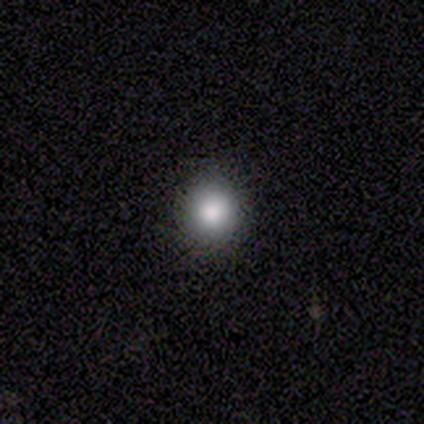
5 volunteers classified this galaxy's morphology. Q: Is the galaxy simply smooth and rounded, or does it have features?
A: smooth — 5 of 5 (100%).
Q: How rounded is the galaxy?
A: round — 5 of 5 (100%).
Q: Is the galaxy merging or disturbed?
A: none — 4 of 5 (80%).